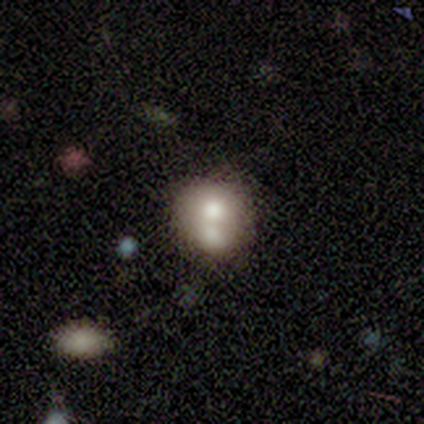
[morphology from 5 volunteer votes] This appears to be a featured or disk galaxy (60%) with no bar (100%), no spiral arms (100%) and a moderate central bulge (67%). Merging: none (60%).